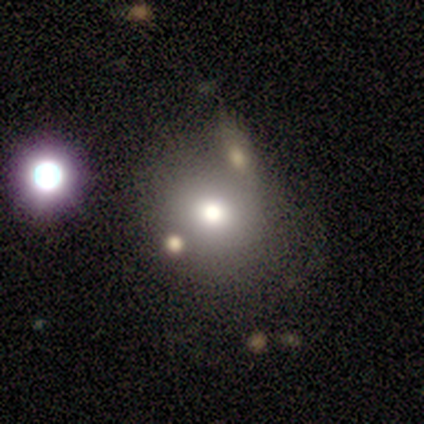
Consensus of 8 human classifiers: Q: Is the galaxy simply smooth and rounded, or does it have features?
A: smooth — 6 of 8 (75%).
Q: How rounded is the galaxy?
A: round — 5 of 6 (83%).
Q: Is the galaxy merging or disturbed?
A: none — 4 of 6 (67%).